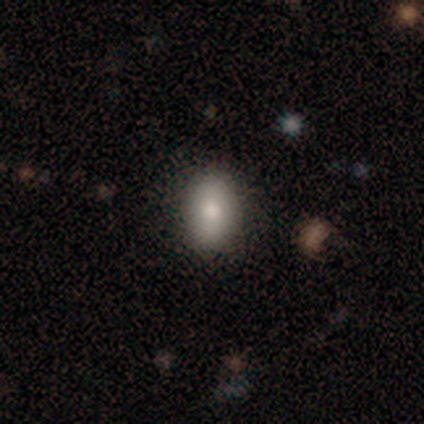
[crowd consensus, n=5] smooth 100%, featured or disk 0%, star or artifact 0%. Down the decision tree: how rounded — in between (80%); merging — none (100%).